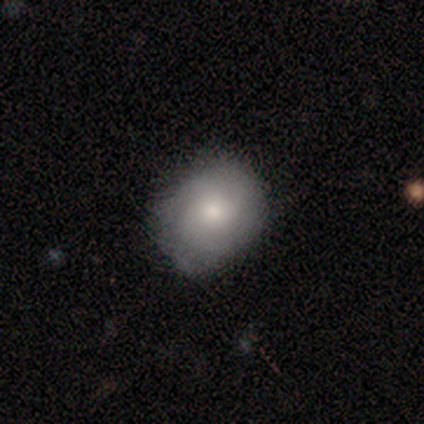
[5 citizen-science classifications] Q: Smooth or featured?
A: smooth (80%); runner-up: featured or disk (20%)
Q: How rounded?
A: round (50%); tied with: in between (50%)
Q: Merging?
A: minor disturbance (60%); runner-up: none (40%)